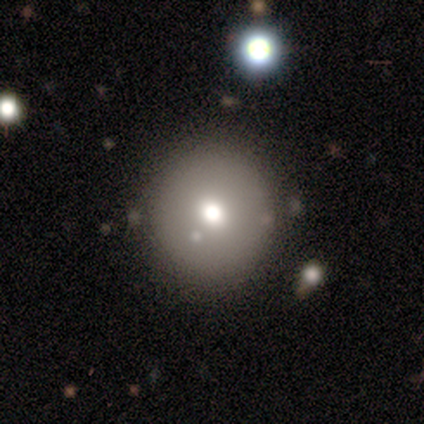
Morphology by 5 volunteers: Overall: smooth (60%; featured or disk 20%). How rounded: round (100%). Merging: none (75%).